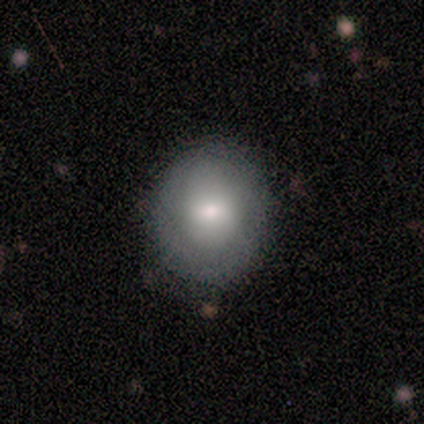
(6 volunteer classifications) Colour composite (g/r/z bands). It shows a smooth galaxy with no disk features (67%) that is round (100%). Merging: none (80%).